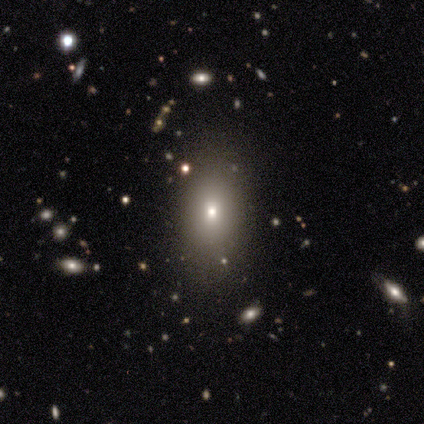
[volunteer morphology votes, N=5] This appears to be a smooth galaxy with no disk features (80%) that is in between round and cigar-shaped (75%). Merging: none (75%).